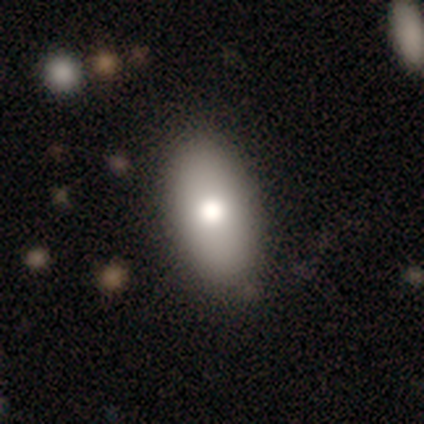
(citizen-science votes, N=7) smooth_or_featured: smooth (p=1.00)
how_rounded: in between (p=1.00)
merging: none (p=1.00)